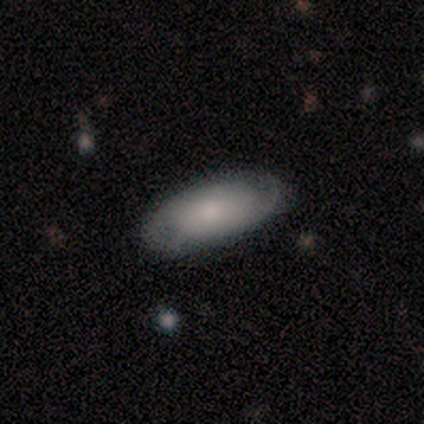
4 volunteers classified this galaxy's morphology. smooth 75%, featured or disk 25%, star or artifact 0%. Down the decision tree: how rounded — in between (100%); merging — none (75%).